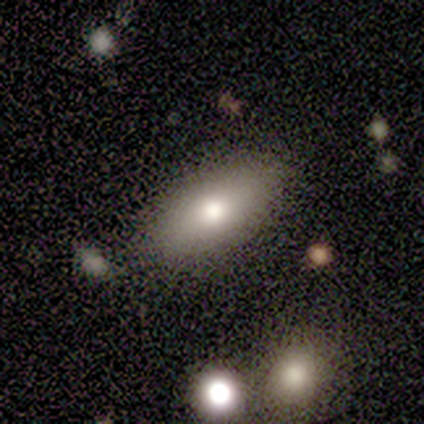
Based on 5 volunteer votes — Smooth or featured? smooth (80%)
How rounded? in between (100%)
Merging? none (100%)